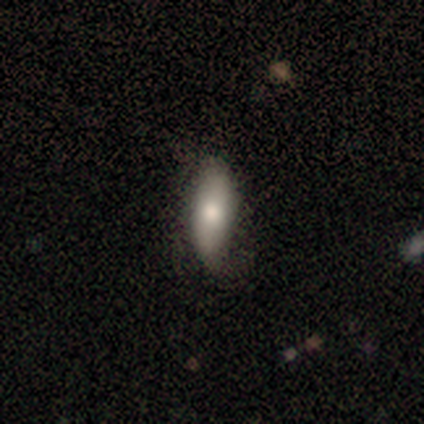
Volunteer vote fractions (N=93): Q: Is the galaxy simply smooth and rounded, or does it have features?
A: smooth — 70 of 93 (75%).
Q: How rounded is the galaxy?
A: in between — 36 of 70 (51%).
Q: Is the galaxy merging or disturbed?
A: none — 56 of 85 (66%).